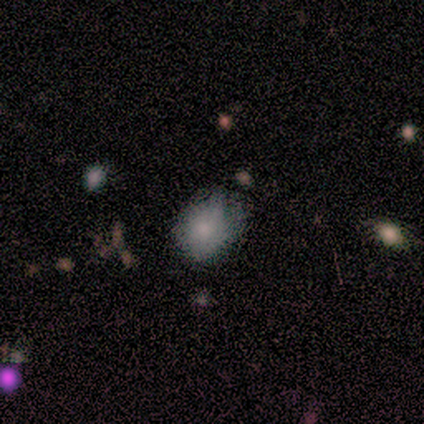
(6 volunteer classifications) A smooth galaxy with no disk features (50%) that is round (67%).

Vote fractions:
- Smooth or featured? smooth: 50% / featured or disk: 33% / star or artifact: 17%
- How rounded? round: 67% / in between: 33% / cigar-shaped: 0%
- Merging? minor disturbance: 60% / none: 40% / major disturbance: 0% / merger: 0%